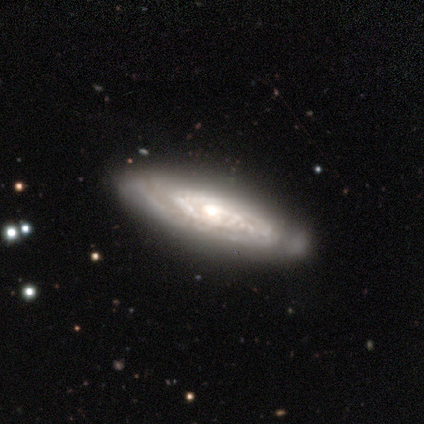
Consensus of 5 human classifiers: Smooth or featured?
  - featured or disk: 80% *
  - smooth: 20%
  - star or artifact: 0%
Edge-on disk?
  - no: 75% *
  - yes: 25%
Bar?
  - weak: 67% *
  - no: 33%
  - strong: 0%
Spiral arms?
  - yes: 100% *
  - no: 0%
Spiral winding?
  - tight: 100% *
  - medium: 0%
  - loose: 0%
Spiral arm count?
  - can't tell: 67% *
  - 2: 33%
  - 1: 0%
  - 3: 0%
  - 4: 0%
  - more than 4: 0%
Bulge size?
  - moderate: 100% *
  - dominant: 0%
  - large: 0%
  - small: 0%
  - none: 0%
Merging?
  - none: 100% *
  - minor disturbance: 0%
  - major disturbance: 0%
  - merger: 0%